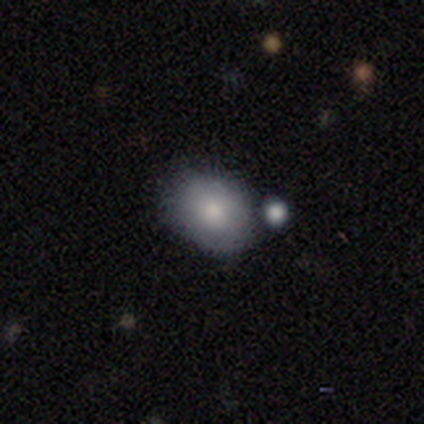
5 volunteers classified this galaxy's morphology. type=smooth (100%); roundness=in between (60%); merging=none (60%).